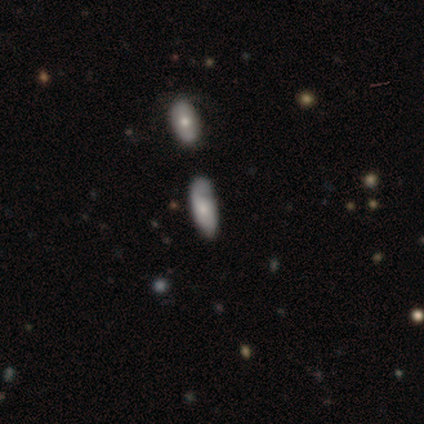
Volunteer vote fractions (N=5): A smooth galaxy with no disk features (60%) that is in between round and cigar-shaped (67%).

Vote fractions:
- Smooth or featured? smooth: 60% / featured or disk: 20% / star or artifact: 20%
- How rounded? in between: 67% / cigar-shaped: 33% / round: 0%
- Merging? none: 75% / merger: 25% / minor disturbance: 0% / major disturbance: 0%